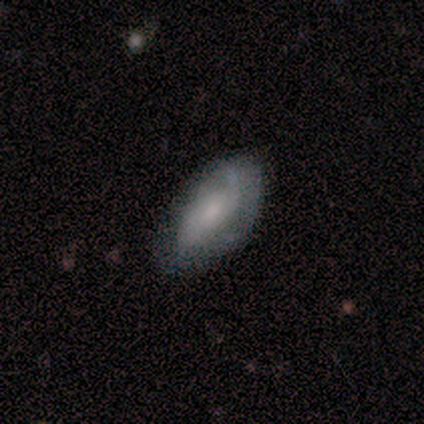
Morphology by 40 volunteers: Smooth or featured? featured or disk (55%)
Edge-on disk? no (91%)
Bar? no (80%)
Spiral arms? yes (85%)
Spiral winding? medium (35%, tied with loose)
Spiral arm count? 2 (41%, tied with can't tell)
Bulge size? small (65%)
Merging? none (67%)